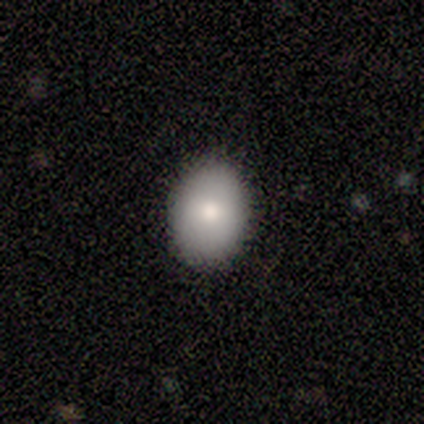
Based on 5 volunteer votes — Q: Smooth or featured?
A: smooth (60%); runner-up: star or artifact (40%)
Q: How rounded?
A: in between (67%); runner-up: round (33%)
Q: Merging?
A: none (100%)